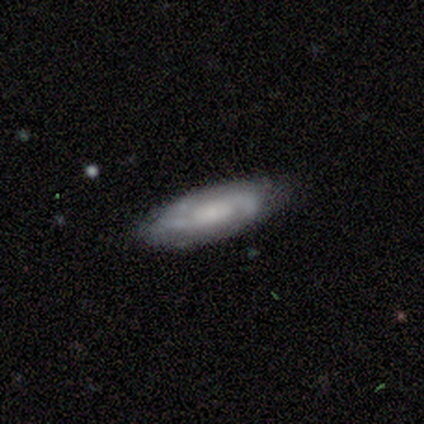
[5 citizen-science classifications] Smooth or featured? 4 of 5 (80%) said featured or disk. Edge-on disk? 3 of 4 (75%) said no. Bar? 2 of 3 (67%) said no. Spiral arms? 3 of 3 (100%) said yes. Spiral winding? 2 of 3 (67%) said medium. Spiral arm count? 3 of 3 (100%) said 2. Bulge size? 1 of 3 (33%, tied with small and none) said large. Merging? 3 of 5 (60%) said none.